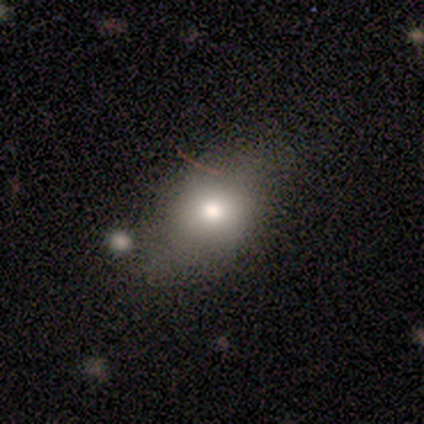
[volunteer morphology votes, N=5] smooth 80%, featured or disk 20%, star or artifact 0%. Down the decision tree: how rounded — round (50%, tied with in between); merging — none (60%).